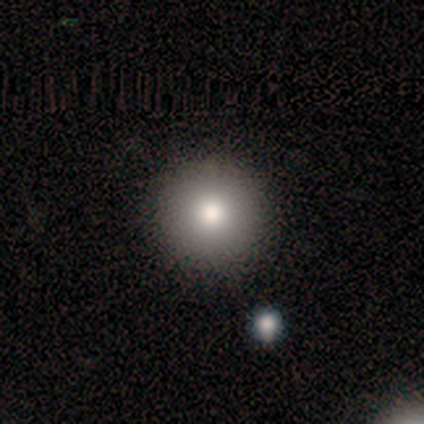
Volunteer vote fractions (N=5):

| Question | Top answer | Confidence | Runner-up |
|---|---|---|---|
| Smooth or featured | smooth | 80% | star or artifact (20%) |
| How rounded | round | 100% | — |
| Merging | none | 75% | minor disturbance (25%) |